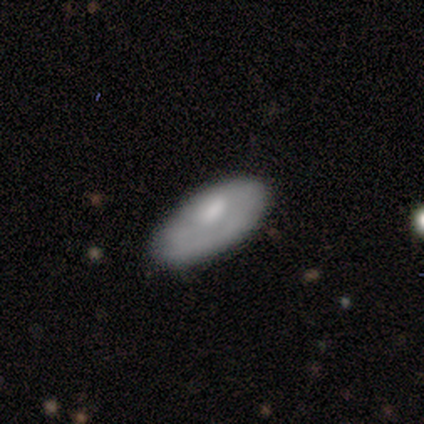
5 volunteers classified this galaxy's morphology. This appears to be a smooth galaxy with no disk features (100%) that is in between round and cigar-shaped (100%). Merging: none (60%).